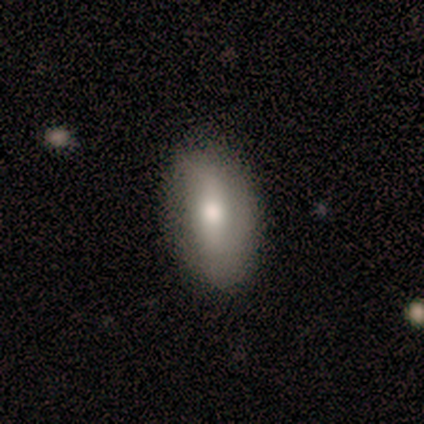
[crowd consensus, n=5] A smooth galaxy with no disk features (80%) that is in between round and cigar-shaped (100%). Merging: none (80%).